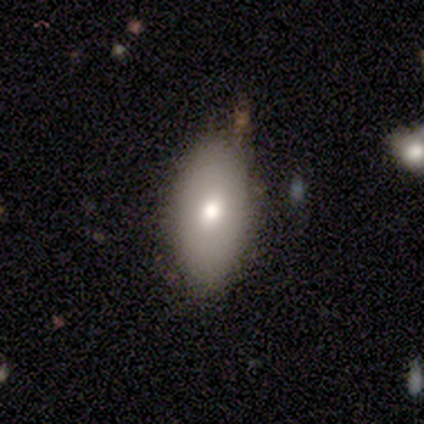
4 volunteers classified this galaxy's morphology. Volunteers were most divided on "smooth or featured": star or artifact: 50%, smooth: 25%, featured or disk: 25%.